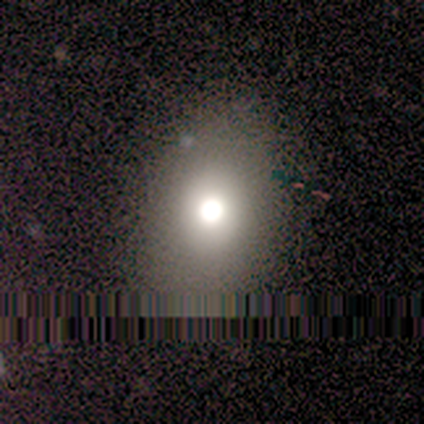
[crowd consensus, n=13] Smooth or featured? 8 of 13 (62%) said smooth. How rounded? 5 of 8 (62%) said in between. Merging? 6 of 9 (67%) said none.